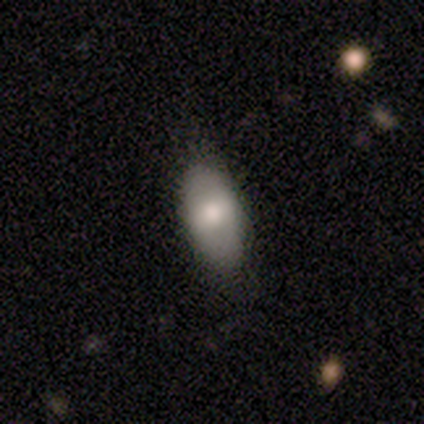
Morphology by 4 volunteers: Q: Smooth or featured?
A: smooth (75%); runner-up: star or artifact (25%)
Q: How rounded?
A: in between (100%)
Q: Merging?
A: none (100%)